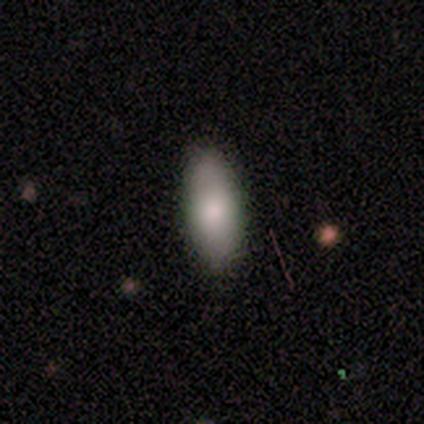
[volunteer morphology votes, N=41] Smooth or featured?
  - smooth: 85% *
  - featured or disk: 10%
  - star or artifact: 5%
How rounded?
  - in between: 77% *
  - cigar-shaped: 20%
  - round: 3%
Merging?
  - none: 95% *
  - major disturbance: 3%
  - merger: 3%
  - minor disturbance: 0%